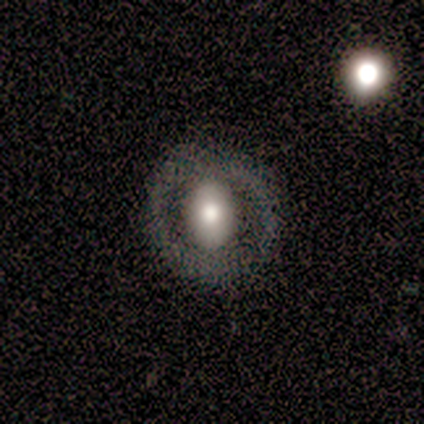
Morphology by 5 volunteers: Smooth or featured?
  - featured or disk: 100% *
  - smooth: 0%
  - star or artifact: 0%
Edge-on disk?
  - no: 80% *
  - yes: 20%
Bar?
  - no: 100% *
  - strong: 0%
  - weak: 0%
Spiral arms?
  - no: 100% *
  - yes: 0%
Bulge size?
  - large: 75% *
  - moderate: 25%
  - dominant: 0%
  - small: 0%
  - none: 0%
Merging?
  - none: 100% *
  - minor disturbance: 0%
  - major disturbance: 0%
  - merger: 0%